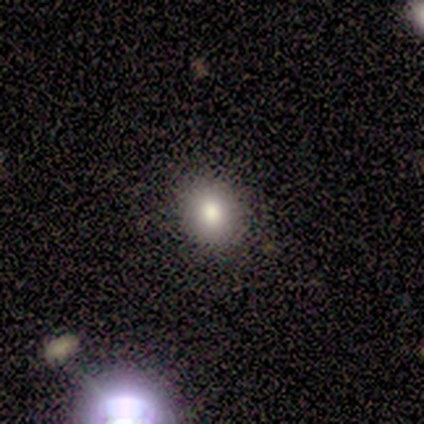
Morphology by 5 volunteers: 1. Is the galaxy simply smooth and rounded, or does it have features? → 80% smooth, 20% featured or disk, 0% star or artifact.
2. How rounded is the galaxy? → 75% round, 25% in between, 0% cigar-shaped.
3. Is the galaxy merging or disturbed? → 100% none, 0% minor disturbance, 0% major disturbance, 0% merger.